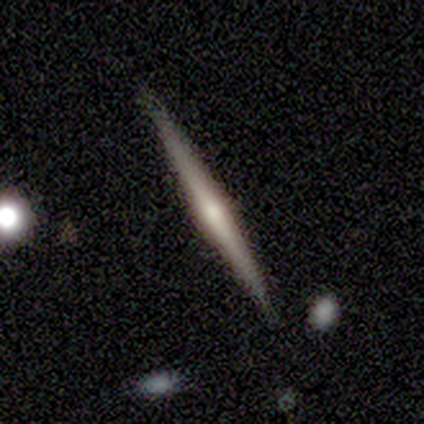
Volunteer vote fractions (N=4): Overall: featured or disk (75%). Edge-on disk: yes (100%). Edge-on bulge: rounded (100%). Merging: none (75%).